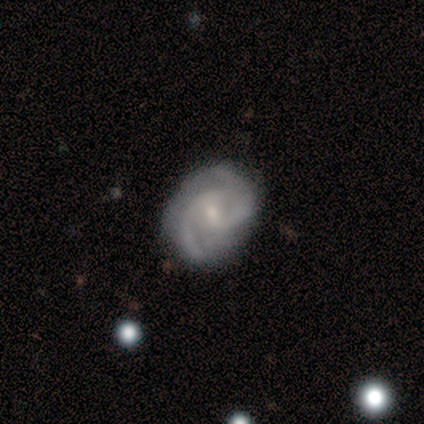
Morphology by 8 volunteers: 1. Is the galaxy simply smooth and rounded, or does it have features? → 100% featured or disk, 0% smooth, 0% star or artifact.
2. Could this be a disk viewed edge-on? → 100% no, 0% yes.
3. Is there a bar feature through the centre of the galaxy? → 50% weak, 38% no, 12% strong.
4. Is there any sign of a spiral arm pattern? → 88% yes, 12% no.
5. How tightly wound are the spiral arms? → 57% medium, 29% loose, 14% tight.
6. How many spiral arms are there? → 71% 2, 14% 3, 14% can't tell, 0% 1, 0% 4, 0% more than 4.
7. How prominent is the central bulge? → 75% small, 12% moderate, 12% none, 0% dominant, 0% large.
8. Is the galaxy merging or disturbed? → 88% none, 12% minor disturbance, 0% major disturbance, 0% merger.